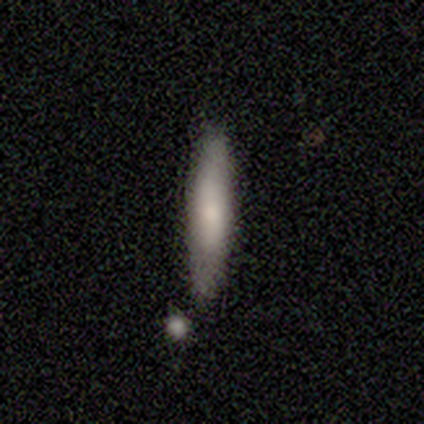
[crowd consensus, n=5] A smooth galaxy with no disk features (80%) that is cigar-shaped (75%). Merging: none (60%).